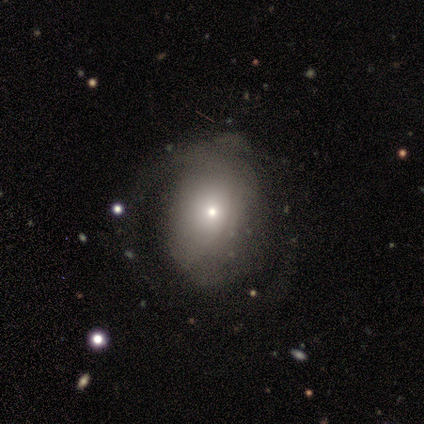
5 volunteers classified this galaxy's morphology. This appears to be a featured or disk galaxy (60%) with no bar (67%), 2 (50%, tied with can't tell) tight (50%, tied with loose) spiral arms (67%) and a small central bulge (67%). Merging: none (80%).